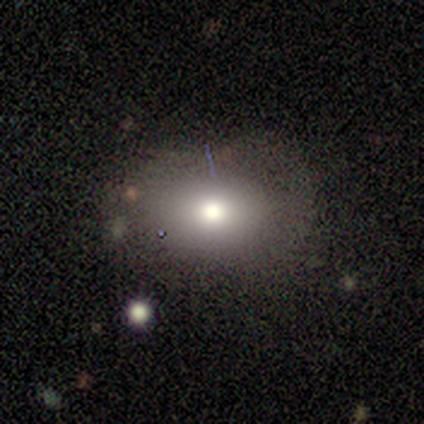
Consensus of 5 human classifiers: Volunteers were most divided on "smooth or featured" (2-way tie): smooth: 40%, star or artifact: 40%, featured or disk: 20%. More confident: how rounded — in between (100%); merging — none (100%).